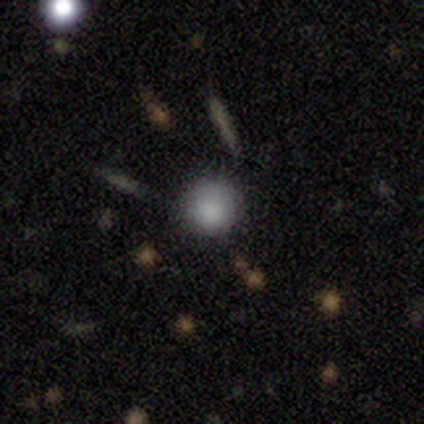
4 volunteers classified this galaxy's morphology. Smooth or featured? 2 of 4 (50%) said smooth. How rounded? 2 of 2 (100%) said round. Merging? 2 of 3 (67%) said none.